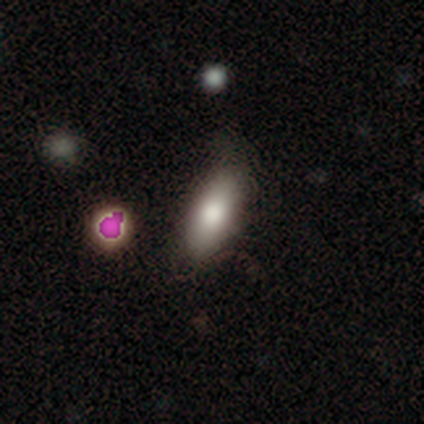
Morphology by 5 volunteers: A smooth galaxy with no disk features (60%) that is in between round and cigar-shaped (67%). Merging: minor disturbance (60%).